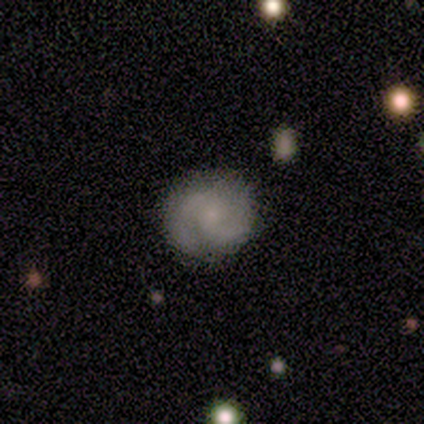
Overall: featured or disk (80%). Edge-on disk: no (100%). Bar: weak (50%, tied with no). Spiral arms: yes (100%). Spiral arm count: 2 (100%). Spiral winding: medium (75%). Bulge size: small (50%; moderate 25%). Merging: none (100%).